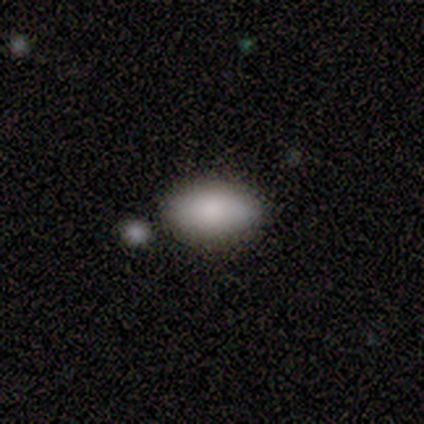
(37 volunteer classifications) Smooth or featured?
  - smooth: 84% *
  - featured or disk: 8%
  - star or artifact: 8%
How rounded?
  - in between: 90% *
  - cigar-shaped: 6%
  - round: 3%
Merging?
  - none: 79% *
  - minor disturbance: 9%
  - merger: 9%
  - major disturbance: 3%